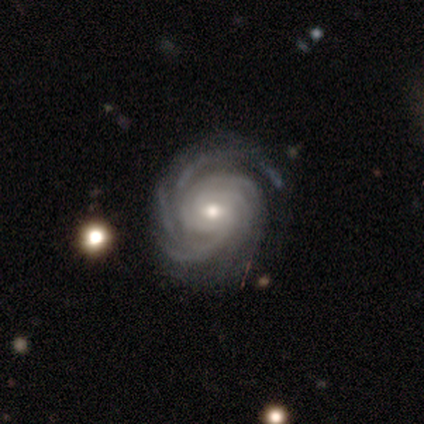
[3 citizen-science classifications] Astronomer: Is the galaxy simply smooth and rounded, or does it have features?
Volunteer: featured or disk — 100%.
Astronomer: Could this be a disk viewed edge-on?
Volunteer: no — 100%.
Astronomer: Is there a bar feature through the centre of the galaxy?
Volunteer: no — 67%.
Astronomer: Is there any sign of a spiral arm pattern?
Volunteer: yes — 100%.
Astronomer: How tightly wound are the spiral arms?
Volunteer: tight — 100%.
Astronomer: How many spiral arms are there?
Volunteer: can't tell — 67%.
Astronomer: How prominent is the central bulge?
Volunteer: small — 67%.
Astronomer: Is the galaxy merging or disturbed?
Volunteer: none — 100%.